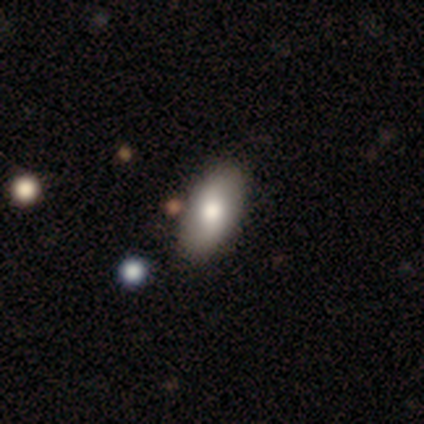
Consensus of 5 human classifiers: Morphology: type=smooth (80%); roundness=in between (100%); merging=none (75%).